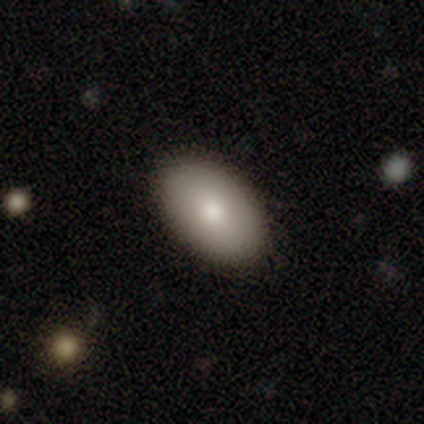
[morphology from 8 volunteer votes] Smooth or featured? smooth (62%)
How rounded? in between (100%)
Merging? none (100%)